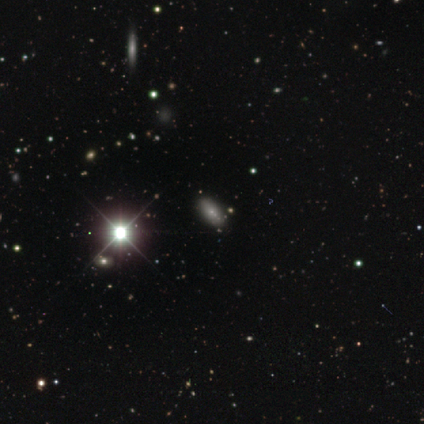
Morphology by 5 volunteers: This is likely a star or artifact rather than a galaxy (60%).